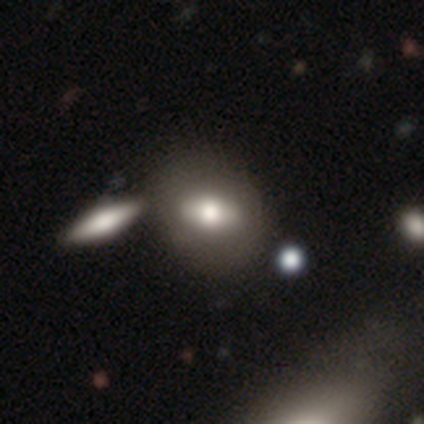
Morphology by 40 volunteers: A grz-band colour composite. It shows a smooth galaxy with no disk features (55%) that is in between round and cigar-shaped (73%). Merging: none (33%).